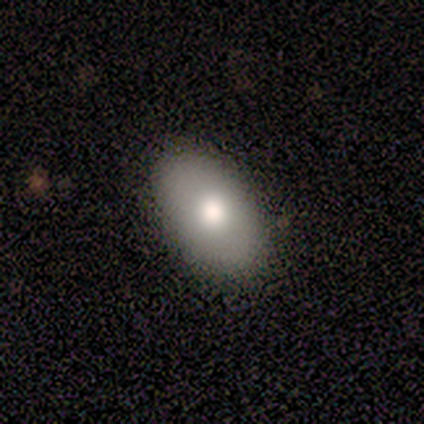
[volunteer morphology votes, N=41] Smooth or featured: smooth — 83% (featured or disk — 15%)
How rounded: in between — 97% (round — 3%)
Merging: none — 92% (minor disturbance — 8%)